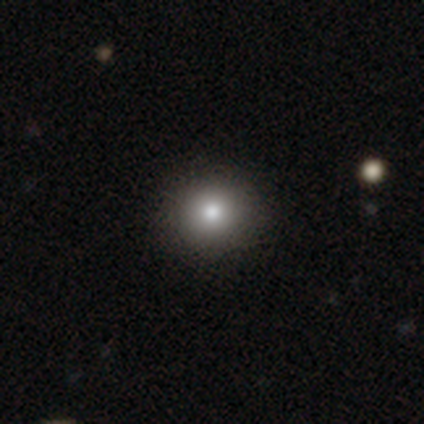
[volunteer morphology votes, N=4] This is possibly a star or artifact rather than a galaxy (50%).